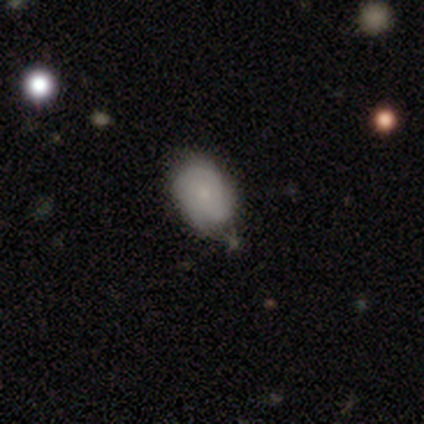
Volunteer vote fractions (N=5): A smooth galaxy with no disk features (80%) that is in between round and cigar-shaped (75%).

Vote fractions:
- Smooth or featured? smooth: 80% / featured or disk: 20% / star or artifact: 0%
- How rounded? in between: 75% / round: 25% / cigar-shaped: 0%
- Merging? none: 60% / minor disturbance: 40% / major disturbance: 0% / merger: 0%